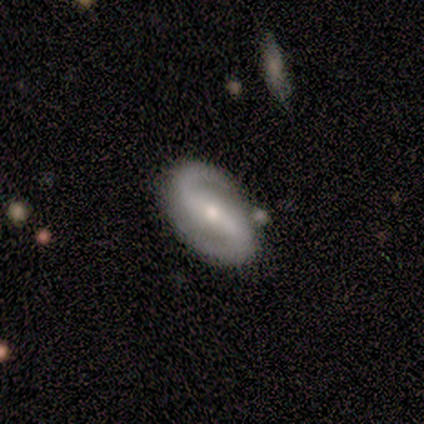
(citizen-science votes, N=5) Smooth or featured? 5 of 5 (100%) said featured or disk. Edge-on disk? 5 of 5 (100%) said no. Bar? 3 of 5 (60%) said no. Spiral arms? 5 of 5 (100%) said yes. Spiral winding? 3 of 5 (60%) said loose. Spiral arm count? 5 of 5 (100%) said 2. Bulge size? 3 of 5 (60%) said small. Merging? 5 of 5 (100%) said none.